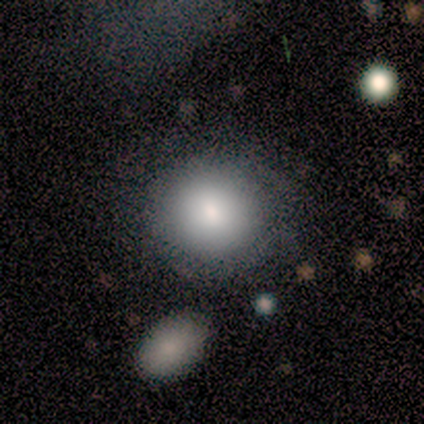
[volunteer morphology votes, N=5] smooth_or_featured: smooth (p=0.80) [alt: star or artifact p=0.20]
how_rounded: round (p=0.75) [alt: in between p=0.25]
merging: none (p=0.75) [alt: major disturbance p=0.25]